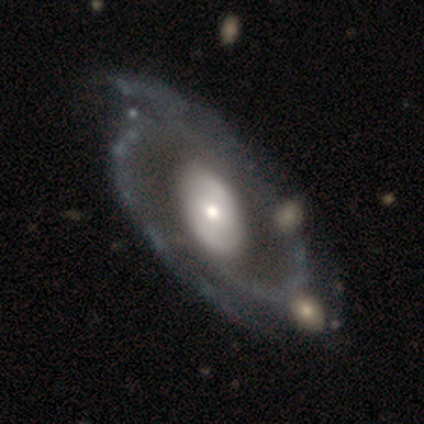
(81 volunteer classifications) A featured or disk galaxy (90%) with no bar (58%), 2 (74%) medium (49%) spiral arms (85%) and a moderate central bulge (47%).

Vote fractions:
- Smooth or featured? featured or disk: 90% / smooth: 5% / star or artifact: 5%
- Edge-on disk? no: 99% / yes: 1%
- Bar? no: 58% / strong: 21% / weak: 21%
- Spiral arms? yes: 85% / no: 15%
- Spiral winding? medium: 49% / tight: 39% / loose: 11%
- Spiral arm count? 2: 74% / can't tell: 11% / 3: 7% / 4: 5% / 1: 3% / more than 4: 0%
- Bulge size? moderate: 47% / small: 29% / large: 21% / dominant: 3% / none: 0%
- Merging? none: 51% / minor disturbance: 26% / major disturbance: 12% / merger: 12%